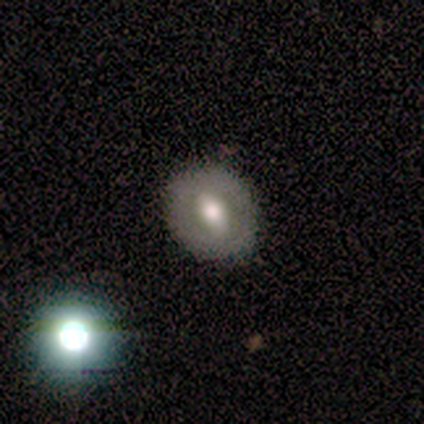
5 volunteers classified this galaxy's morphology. smooth_or_featured: smooth (p=0.60) [alt: featured or disk p=0.40]
how_rounded: round (p=0.67) [alt: in between p=0.33]
merging: none (p=0.60) [alt: minor disturbance p=0.20]